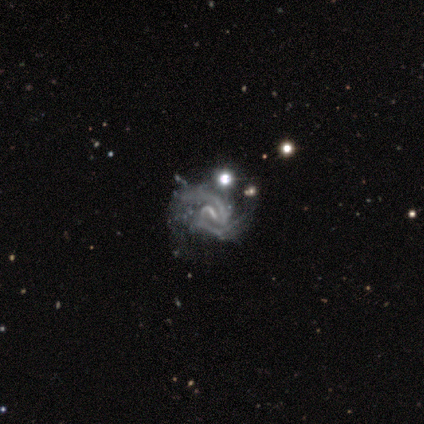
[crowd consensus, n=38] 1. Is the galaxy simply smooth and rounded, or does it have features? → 97% featured or disk, 3% smooth, 0% star or artifact.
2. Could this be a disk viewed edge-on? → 97% no, 3% yes.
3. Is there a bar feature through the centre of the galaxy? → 50% weak, 28% strong, 22% no.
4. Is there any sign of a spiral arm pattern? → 86% yes, 14% no.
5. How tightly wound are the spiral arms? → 45% tight (tied), 45% medium (tied), 10% loose.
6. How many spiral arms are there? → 77% 2, 16% can't tell, 6% 3, 0% 1, 0% 4, 0% more than 4.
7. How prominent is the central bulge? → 47% small, 36% none, 11% moderate, 6% large, 0% dominant.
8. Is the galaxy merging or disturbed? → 42% major disturbance, 11% none, 11% merger, 5% minor disturbance.